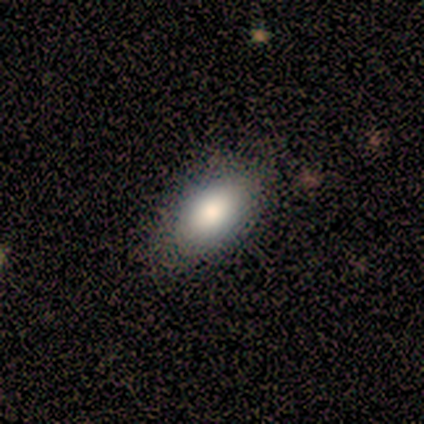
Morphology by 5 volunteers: This is likely a smooth galaxy (60%). How rounded: clearly in between (100%). Merging: clearly none (100%).